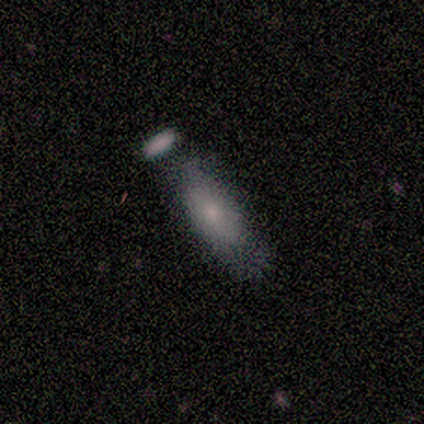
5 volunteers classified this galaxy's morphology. smooth-or-featured: featured or disk: 60% | smooth: 40% | star or artifact: 0%
  disk-edge-on: no: 67% | yes: 33%
    bar: no: 100% | strong: 0% | weak: 0%
    has-spiral-arms: no: 100% | yes: 0%
    bulge-size: moderate: 50% (tied) | small: 50% (tied) | dominant: 0% | large: 0% | none: 0%
  merging: merger: 60% | none: 20% | minor disturbance: 20% | major disturbance: 0%